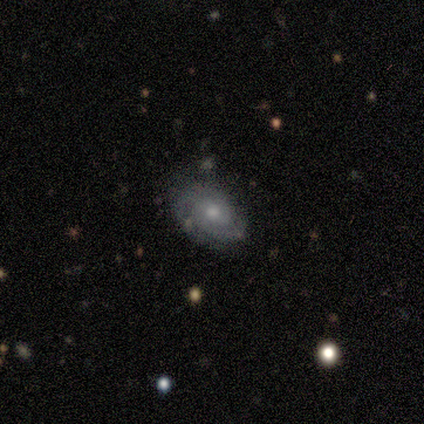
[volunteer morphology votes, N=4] Q: Smooth or featured?
A: featured or disk (75%); runner-up: star or artifact (25%)
Q: Edge-on disk?
A: no (100%)
Q: Bar?
A: no (100%)
Q: Spiral arms?
A: yes (100%)
Q: Spiral winding?
A: tight (67%); runner-up: medium (33%)
Q: Spiral arm count?
A: 2 (33%); tied with: 3 (33%); can't tell (33%)
Q: Bulge size?
A: moderate (67%); runner-up: small (33%)
Q: Merging?
A: none (67%); runner-up: minor disturbance (33%)